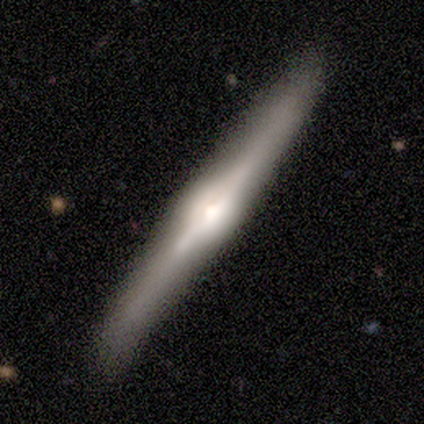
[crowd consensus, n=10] Smooth or featured?
  - featured or disk: 60% *
  - smooth: 40%
  - star or artifact: 0%
Edge-on disk?
  - yes: 100% *
  - no: 0%
Edge-on bulge?
  - rounded: 100% *
  - boxy: 0%
  - none: 0%
Merging?
  - none: 90% *
  - major disturbance: 10%
  - minor disturbance: 0%
  - merger: 0%